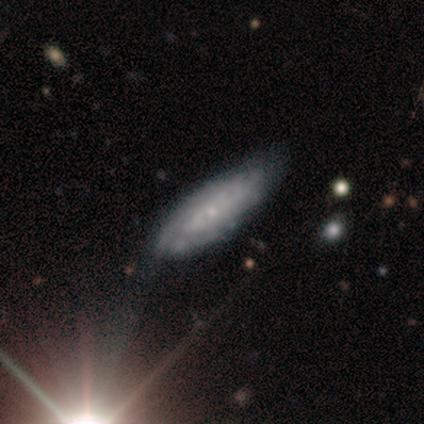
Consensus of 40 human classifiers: featured or disk 75%, smooth 25%, star or artifact 0%. Down the decision tree: edge-on disk — no (90%); bar — no (89%); spiral arms — yes (93%); spiral arm count — can't tell (88%); spiral winding — tight (64%); bulge size — small (81%); merging — none (50%).